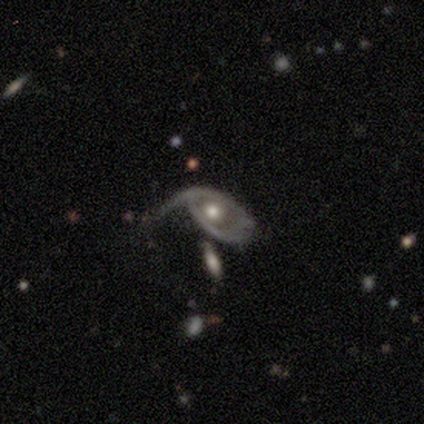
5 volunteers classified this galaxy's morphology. type=featured or disk (80%); edge-on=no (100%); bar=no (75%); spiral arms=yes (75%); winding=loose (100%); arm count=1 (100%); bulge=moderate (75%); merging=none (60%).